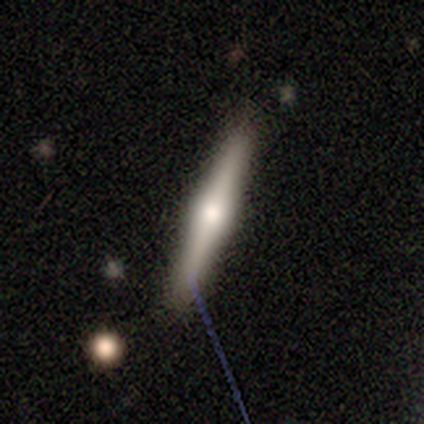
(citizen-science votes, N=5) smooth-or-featured: featured or disk: 60% | smooth: 40% | star or artifact: 0%
  disk-edge-on: yes: 100% | no: 0%
    edge-on-bulge: rounded: 67% | none: 33% | boxy: 0%
  merging: none: 80% | minor disturbance: 20% | major disturbance: 0% | merger: 0%